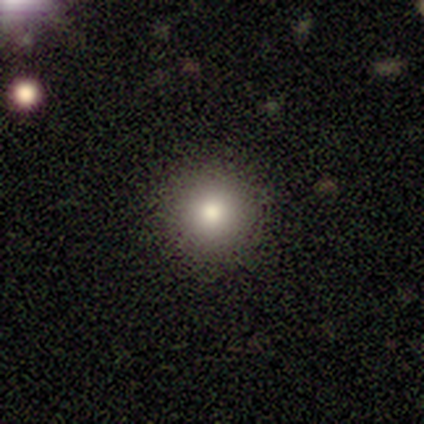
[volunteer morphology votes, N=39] Smooth or featured: smooth — 85% (featured or disk — 10%)
How rounded: round — 94% (in between — 6%)
Merging: none — 95% (minor disturbance — 3%)